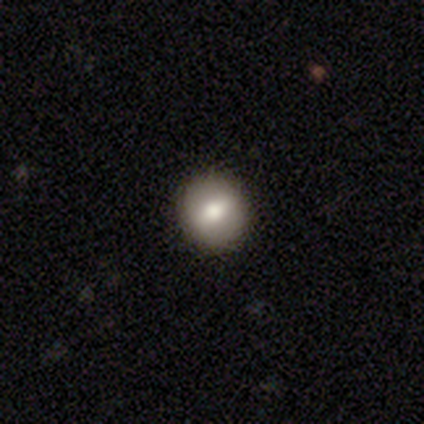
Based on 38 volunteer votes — Morphology: type=smooth (53%); roundness=round (90%); merging=none (87%).